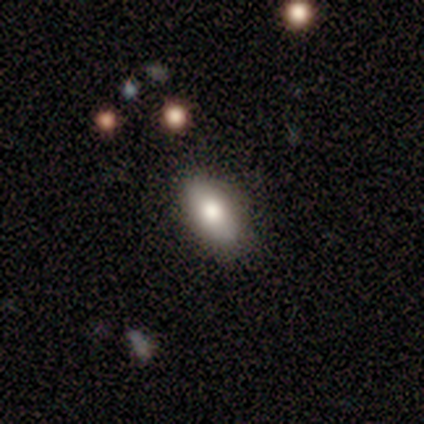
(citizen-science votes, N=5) This appears to be a smooth galaxy with no disk features (100%) that is in between round and cigar-shaped (80%). Merging: none (60%).